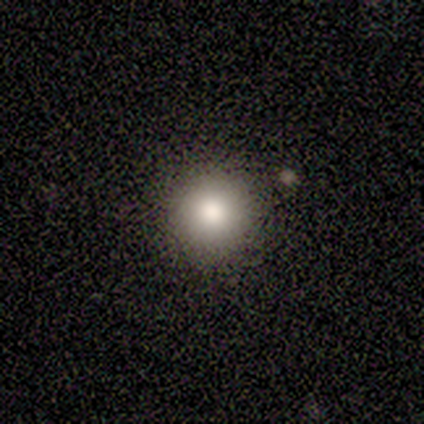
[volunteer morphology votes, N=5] Smooth or featured: smooth — 60% (star or artifact — 40%)
How rounded: round — 100%
Merging: none — 100%